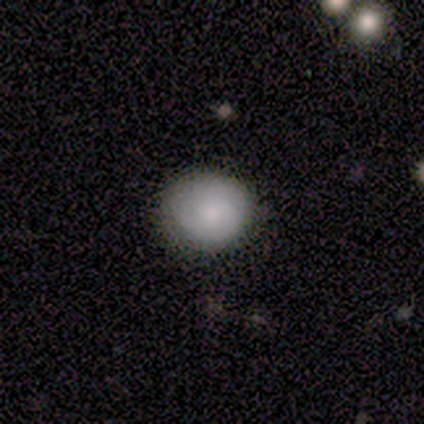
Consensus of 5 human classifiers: smooth-or-featured: smooth: 40% (tied) | featured or disk: 40% (tied) | star or artifact: 20%
  how-rounded: round: 100% | in between: 0% | cigar-shaped: 0%
  merging: none: 75% | major disturbance: 25% | minor disturbance: 0% | merger: 0%